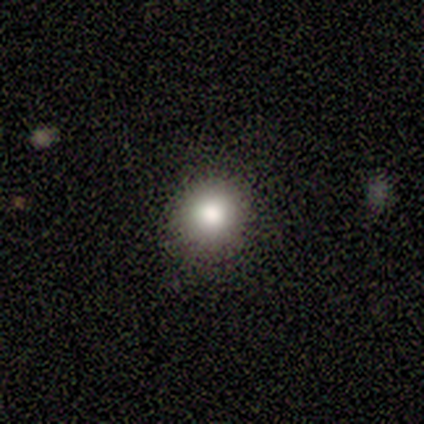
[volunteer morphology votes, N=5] type=smooth (80%); roundness=round (100%); merging=none (80%).